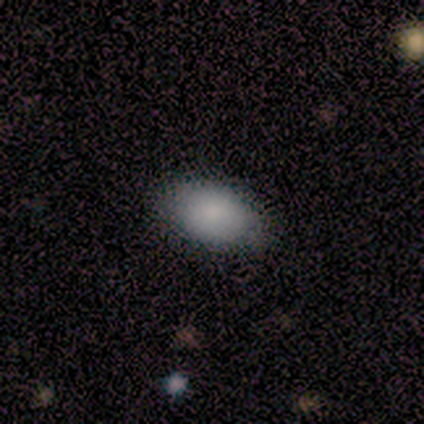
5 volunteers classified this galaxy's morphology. A smooth galaxy with no disk features (80%) that is in between round and cigar-shaped (100%). Merging: none (80%).